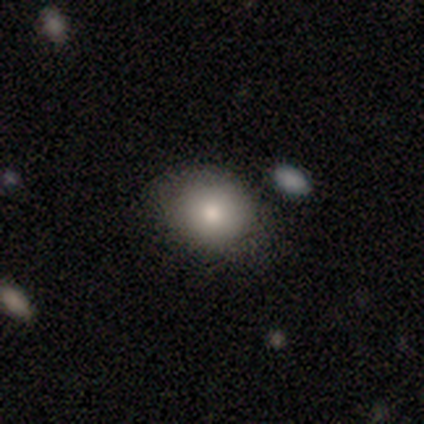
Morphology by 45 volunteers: Smooth or featured?
  - smooth: 93% *
  - star or artifact: 7%
  - featured or disk: 0%
How rounded?
  - round: 55% *
  - in between: 45%
  - cigar-shaped: 0%
Merging?
  - none: 90% *
  - minor disturbance: 7%
  - merger: 2%
  - major disturbance: 0%